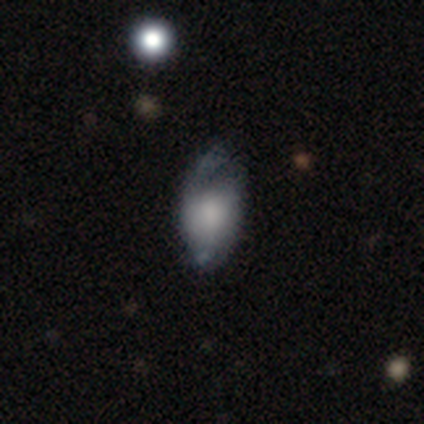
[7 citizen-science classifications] Volunteers were most divided on "smooth or featured": smooth: 43%, featured or disk: 29%, star or artifact: 29%. More confident: how rounded — in between (100%); merging — none (60%).